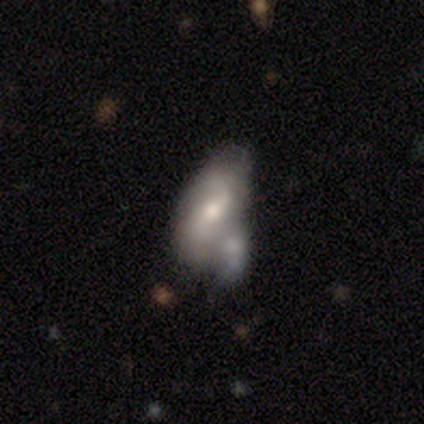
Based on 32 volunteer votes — This appears to be a featured or disk galaxy (56%) with a weak bar (56%), 2 (100%) loose (78%) spiral arms (50%, tied with no) and a moderate central bulge (61%). Merging: merger (52%).